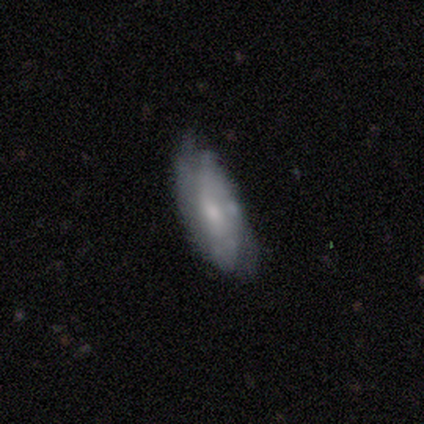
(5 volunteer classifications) Morphology: type=smooth (60%); roundness=in between (100%); merging=none (60%).